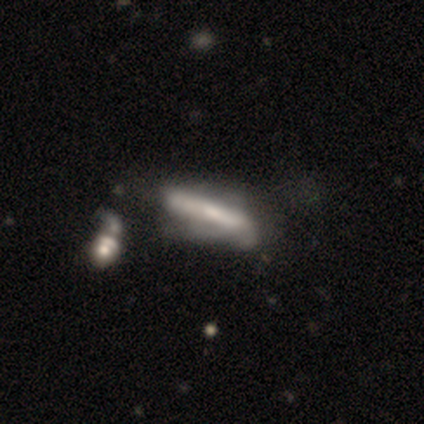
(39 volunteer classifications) smooth_or_featured: smooth (p=0.51) [alt: featured or disk p=0.44]
how_rounded: cigar-shaped (p=0.85) [alt: in between p=0.15]
merging: major disturbance (p=0.30) [alt: minor disturbance p=0.24]